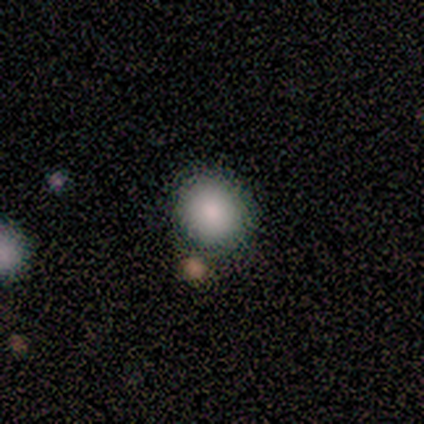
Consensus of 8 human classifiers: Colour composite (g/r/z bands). It shows a smooth galaxy with no disk features (75%) that is round (83%). Merging: none (71%).